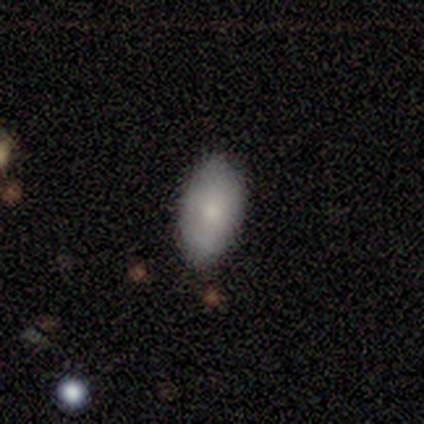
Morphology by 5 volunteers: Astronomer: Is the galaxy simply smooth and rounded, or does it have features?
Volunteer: smooth — 100%.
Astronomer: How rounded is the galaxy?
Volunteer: in between — 100%.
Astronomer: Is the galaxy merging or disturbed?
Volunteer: none — 80%.